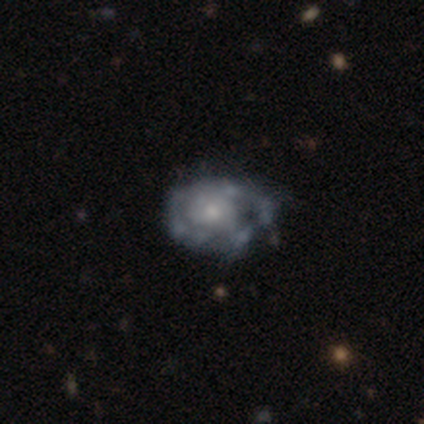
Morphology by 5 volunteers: Smooth or featured? featured or disk (100%)
Edge-on disk? no (100%)
Bar? no (80%)
Spiral arms? no (60%)
Bulge size? small (60%)
Merging? none (40%, tied with major disturbance)